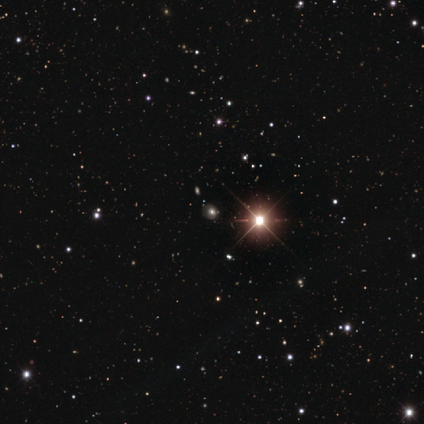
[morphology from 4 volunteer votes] Smooth or featured? 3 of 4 (75%) said star or artifact.